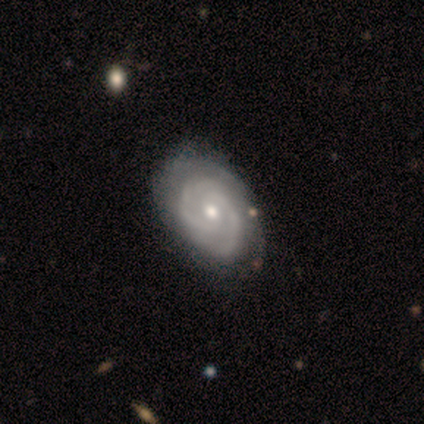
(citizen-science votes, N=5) A featured or disk galaxy (80%) with no bar (75%), 2 (75%) tight (100%) spiral arms (100%) and a moderate central bulge (75%).

Vote fractions:
- Smooth or featured? featured or disk: 80% / star or artifact: 20% / smooth: 0%
- Edge-on disk? no: 100% / yes: 0%
- Bar? no: 75% / weak: 25% / strong: 0%
- Spiral arms? yes: 100% / no: 0%
- Spiral winding? tight: 100% / medium: 0% / loose: 0%
- Spiral arm count? 2: 75% / more than 4: 25% / 1: 0% / 3: 0% / 4: 0% / can't tell: 0%
- Bulge size? moderate: 75% / large: 25% / dominant: 0% / small: 0% / none: 0%
- Merging? none: 50% / minor disturbance: 25% / merger: 25% / major disturbance: 0%